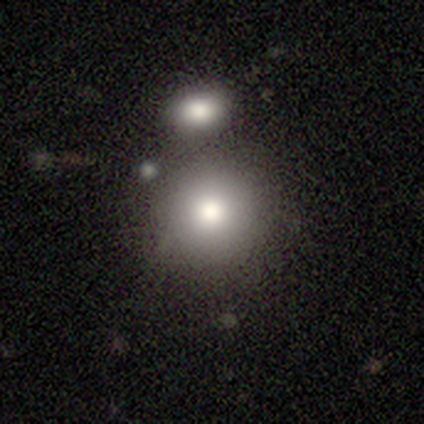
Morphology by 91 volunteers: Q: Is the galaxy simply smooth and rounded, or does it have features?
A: smooth — 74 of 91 (81%).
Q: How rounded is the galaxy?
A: round — 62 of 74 (84%).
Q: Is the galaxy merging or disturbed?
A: none — 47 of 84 (56%).